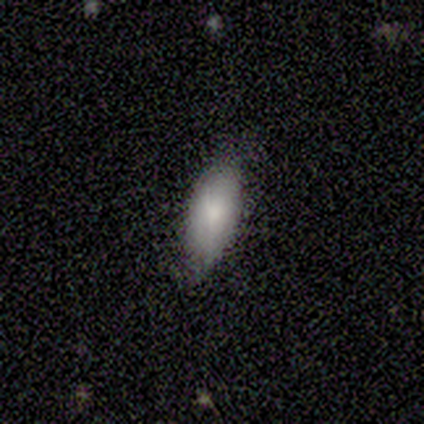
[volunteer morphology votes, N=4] This is likely a smooth galaxy (75%). How rounded: clearly in between (100%). Merging: likely minor disturbance (75%).